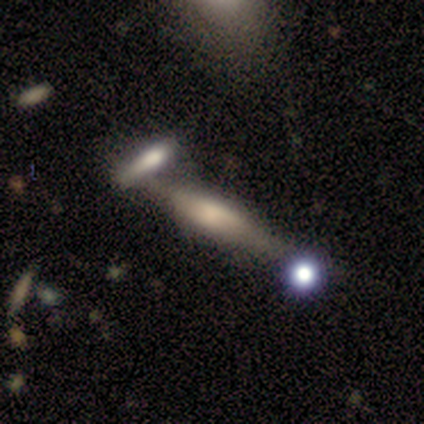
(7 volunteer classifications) smooth-or-featured: featured or disk: 57% | smooth: 43% | star or artifact: 0%
  disk-edge-on: yes: 75% | no: 25%
    edge-on-bulge: rounded: 67% | boxy: 33% | none: 0%
  merging: none: 57% | merger: 43% | minor disturbance: 0% | major disturbance: 0%